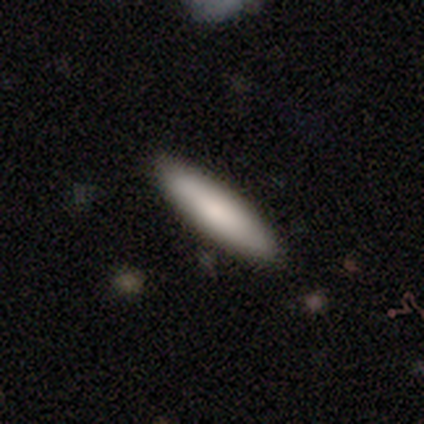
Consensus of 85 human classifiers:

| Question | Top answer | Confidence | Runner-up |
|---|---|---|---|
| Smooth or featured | smooth | 86% | featured or disk (9%) |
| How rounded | cigar-shaped | 89% | in between (10%) |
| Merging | none | 93% | minor disturbance (7%) |